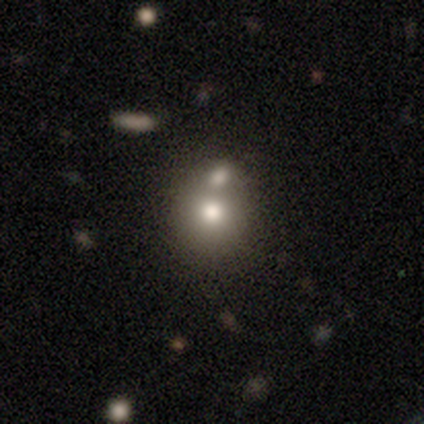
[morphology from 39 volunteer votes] Smooth or featured? smooth (72%)
How rounded? round (61%)
Merging? merger (44%)